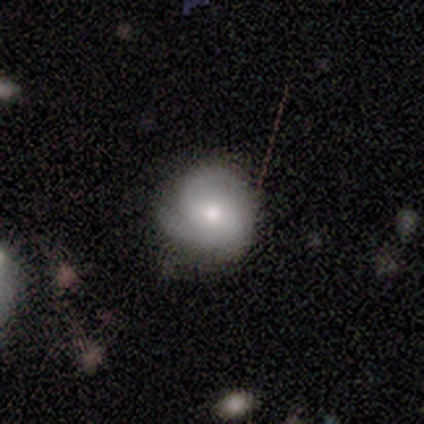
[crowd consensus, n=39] Smooth or featured? featured or disk (62%)
Edge-on disk? no (100%)
Bar? no (79%)
Spiral arms? yes (88%)
Spiral winding? tight (43%)
Spiral arm count? 2 (43%)
Bulge size? moderate (67%)
Merging? none (66%)